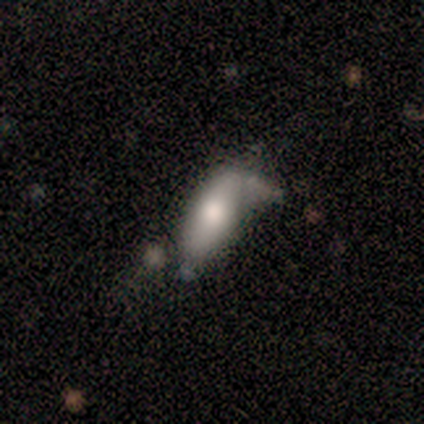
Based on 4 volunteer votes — A smooth galaxy with no disk features (50%, tied with featured or disk) that is in between round and cigar-shaped (50%, tied with cigar-shaped). Merging: minor disturbance (50%, tied with major disturbance).